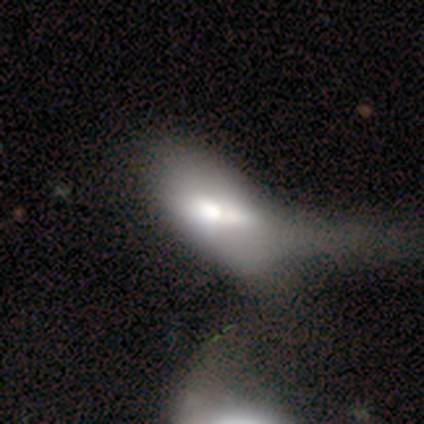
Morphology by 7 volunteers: Overall: smooth (71%). How rounded: in between (100%). Merging: major disturbance (50%, tied with merger).